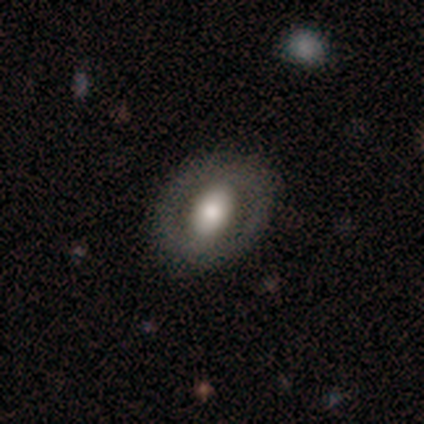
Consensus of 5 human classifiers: Morphology: type=smooth (60%); roundness=in between (100%); merging=none (100%).